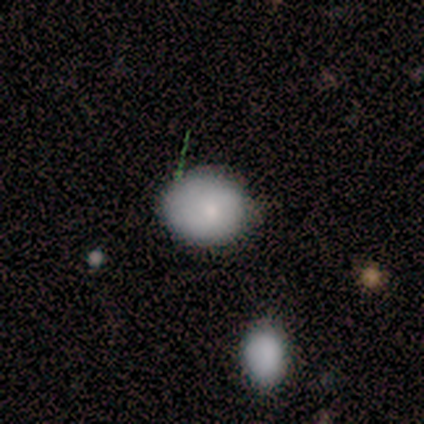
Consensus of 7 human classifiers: smooth 100%, featured or disk 0%, star or artifact 0%. Down the decision tree: how rounded — round (57%); merging — none (86%).